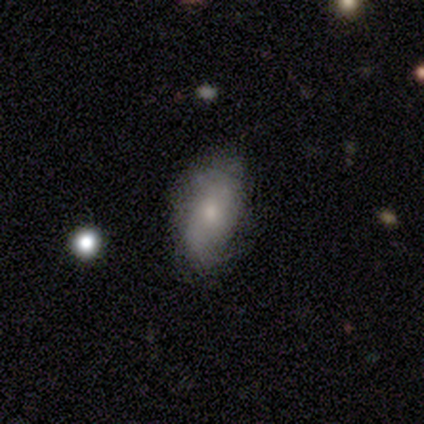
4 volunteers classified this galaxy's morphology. Smooth or featured? smooth (75%)
How rounded? in between (100%)
Merging? minor disturbance (75%)